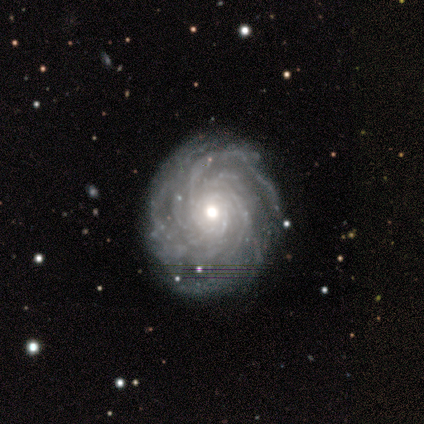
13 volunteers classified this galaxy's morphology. smooth_or_featured: featured or disk (p=1.00)
disk_edge_on: no (p=1.00)
bar: no (p=0.69) [alt: weak p=0.23]
has_spiral_arms: yes (p=1.00)
spiral_winding: tight (p=0.69) [alt: medium p=0.31]
spiral_arm_count: more than 4 (p=0.62) [alt: 4 p=0.23]
bulge_size: moderate (p=0.69) [alt: small p=0.23]
merging: none (p=0.92) [alt: merger p=0.08]